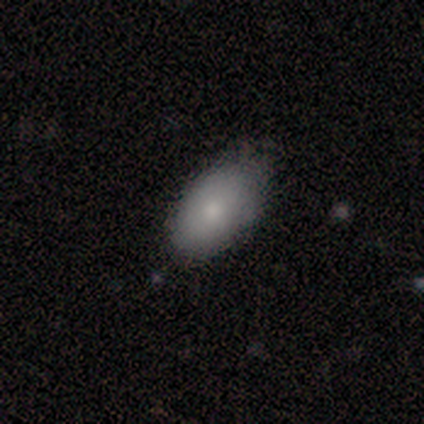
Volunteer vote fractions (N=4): This is likely a smooth galaxy (75%). How rounded: clearly in between (100%). Merging: likely none (75%).